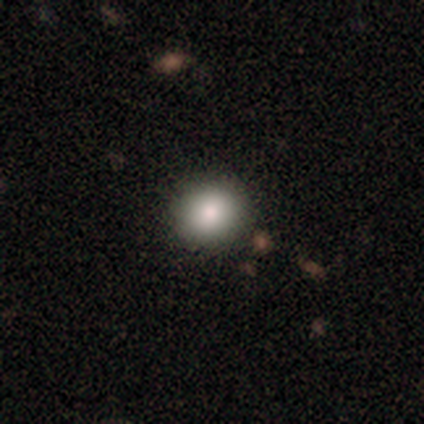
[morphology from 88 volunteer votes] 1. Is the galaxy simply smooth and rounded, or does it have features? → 73% smooth, 15% star or artifact, 12% featured or disk.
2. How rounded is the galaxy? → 83% round, 17% in between, 0% cigar-shaped.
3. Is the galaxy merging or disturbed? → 93% none, 4% minor disturbance, 3% major disturbance, 0% merger.